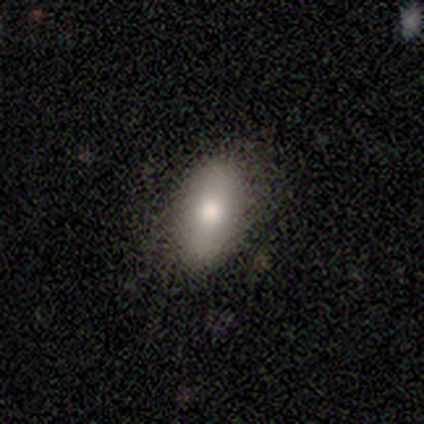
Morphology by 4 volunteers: This appears to be a smooth galaxy with no disk features (100%) that is in between round and cigar-shaped (100%). Merging: none (100%).